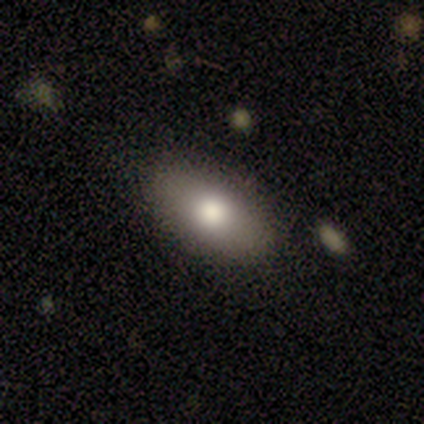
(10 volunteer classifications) Smooth or featured? smooth (70%)
How rounded? in between (86%)
Merging? none (90%)